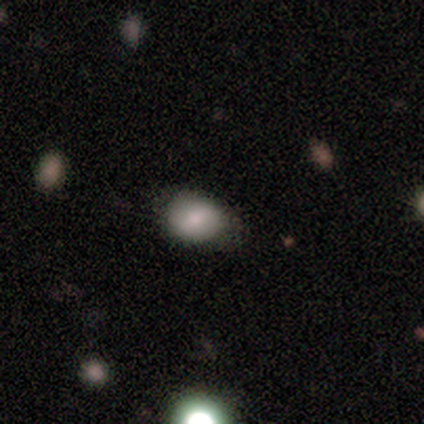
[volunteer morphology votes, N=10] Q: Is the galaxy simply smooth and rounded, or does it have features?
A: smooth — 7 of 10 (70%).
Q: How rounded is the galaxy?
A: in between — 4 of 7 (57%).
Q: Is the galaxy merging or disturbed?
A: none — 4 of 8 (50%).